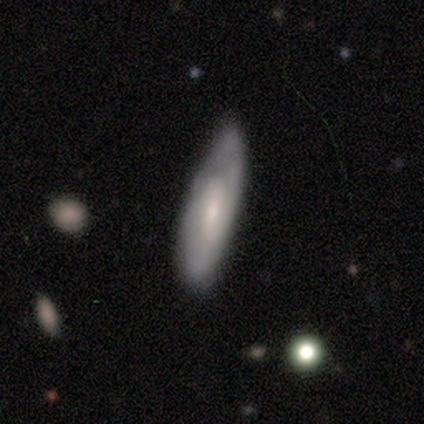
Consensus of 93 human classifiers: A featured or disk galaxy (55%) with no bar (51%), 2 (48%) tight (52%) spiral arms (71%) and a small central bulge (63%). Merging: none (60%).